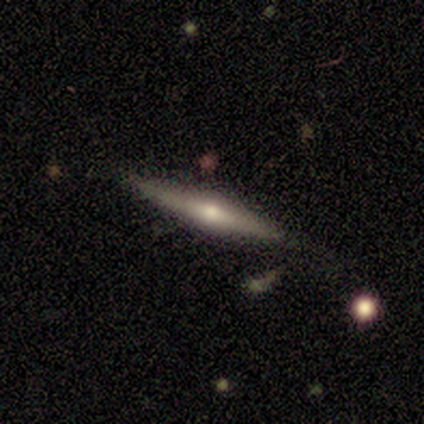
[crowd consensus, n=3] Overall: smooth (67%; featured or disk 33%). How rounded: in between (50%, tied with cigar-shaped). Merging: none (67%; minor disturbance 33%).